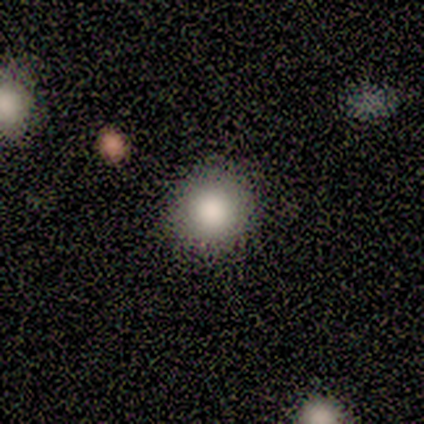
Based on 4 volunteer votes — Overall: smooth (75%). How rounded: round (100%). Merging: none (67%; major disturbance 33%).